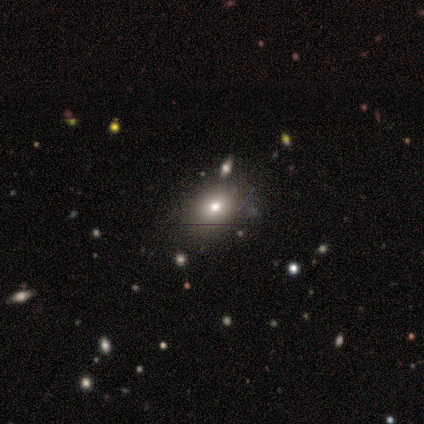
A smooth galaxy with no disk features (50%) that is in between round and cigar-shaped (100%).

Vote fractions:
- Smooth or featured? smooth: 50% / featured or disk: 25% / star or artifact: 25%
- How rounded? in between: 100% / round: 0% / cigar-shaped: 0%
- Merging? none: 100% / minor disturbance: 0% / major disturbance: 0% / merger: 0%